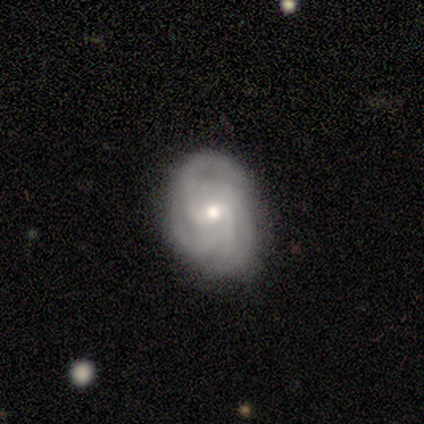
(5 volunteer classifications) Q: Smooth or featured?
A: featured or disk (100%)
Q: Edge-on disk?
A: no (100%)
Q: Bar?
A: no (60%); runner-up: weak (40%)
Q: Spiral arms?
A: yes (100%)
Q: Spiral winding?
A: tight (80%); runner-up: medium (20%)
Q: Spiral arm count?
A: 3 (40%); tied with: can't tell (40%)
Q: Bulge size?
A: small (60%); runner-up: moderate (40%)
Q: Merging?
A: none (40%); tied with: minor disturbance (40%)